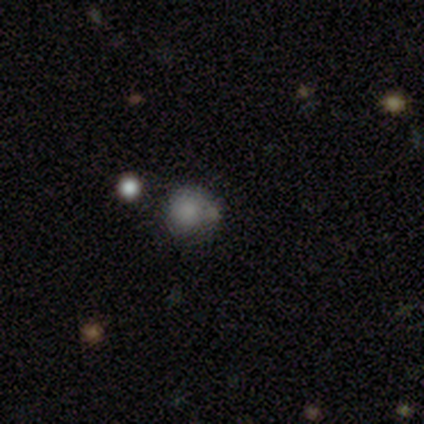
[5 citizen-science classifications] Smooth or featured: smooth — 80% (star or artifact — 20%)
How rounded: round — 75% (in between — 25%)
Merging: none — 75% (merger — 25%)